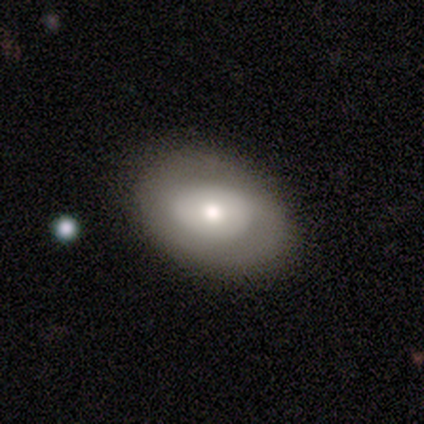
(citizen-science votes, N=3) A featured or disk galaxy (67%) with a weak bar (50%, tied with no), no spiral arms (100%) and a large central bulge (50%, tied with moderate). Merging: minor disturbance (67%).